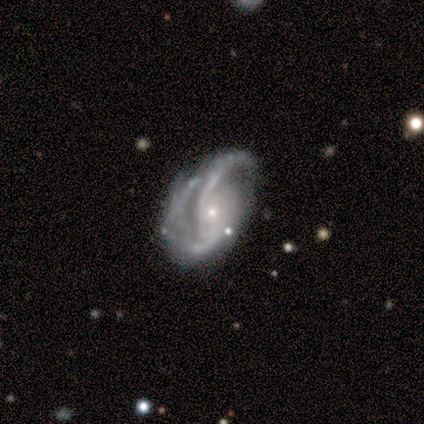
This is clearly a featured or disk galaxy (97%). It is clearly not viewed edge-on (100%). Bar: likely no (76%). Spiral arm pattern: clearly yes (100%). Spiral arm count: likely 2 (73%). Spiral winding: possibly medium (46%). Central bulge: likely small (78%). Merging: possibly none (49%).